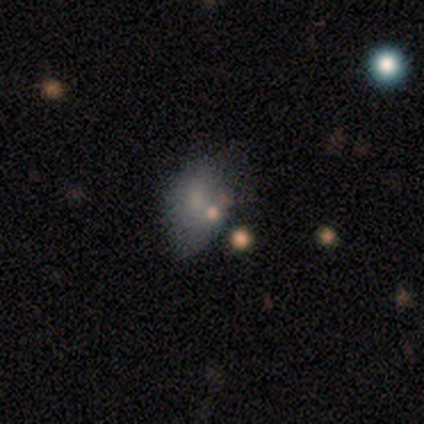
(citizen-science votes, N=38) Smooth or featured? 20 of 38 (53%) said smooth. How rounded? 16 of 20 (80%) said in between. Merging? 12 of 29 (41%) said none.